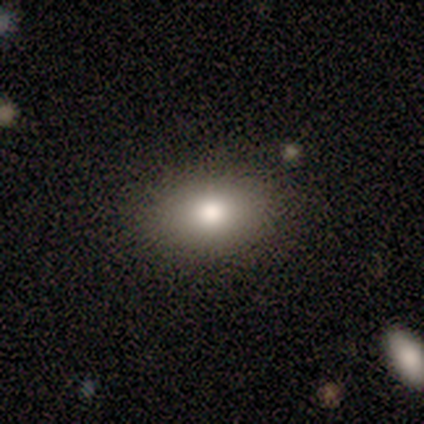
This is clearly a smooth galaxy (100%). How rounded: clearly in between (100%). Merging: clearly major disturbance (100%).